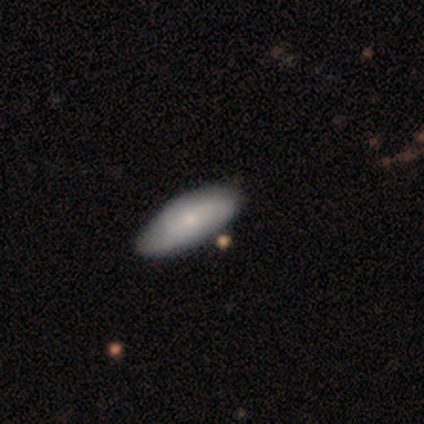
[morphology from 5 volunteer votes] type=smooth (60%); roundness=in between (100%); merging=none (100%).